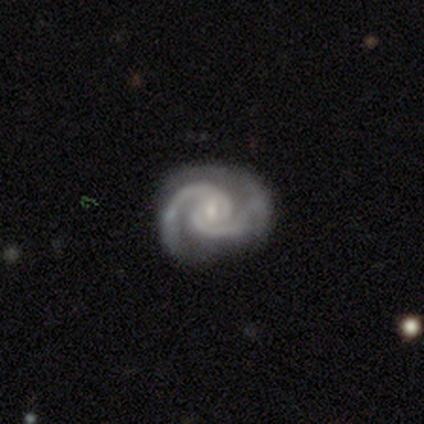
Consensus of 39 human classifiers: Smooth or featured?
  - featured or disk: 97% *
  - smooth: 3%
  - star or artifact: 0%
Edge-on disk?
  - no: 97% *
  - yes: 3%
Bar?
  - weak: 43% *
  - no: 41%
  - strong: 16%
Spiral arms?
  - yes: 97% *
  - no: 3%
Spiral winding?
  - medium: 50% *
  - tight: 39%
  - loose: 11%
Spiral arm count?
  - 2: 89% *
  - 3: 6%
  - 1: 3%
  - can't tell: 3%
  - 4: 0%
  - more than 4: 0%
Bulge size?
  - small: 51% *
  - moderate: 32%
  - none: 11%
  - large: 5%
  - dominant: 0%
Merging?
  - none: 72% *
  - minor disturbance: 18%
  - major disturbance: 10%
  - merger: 0%